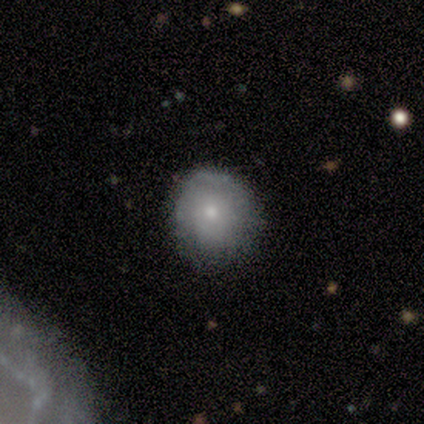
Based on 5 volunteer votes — Morphology: type=smooth (60%); roundness=round (100%); merging=none (50%, tied with minor disturbance).